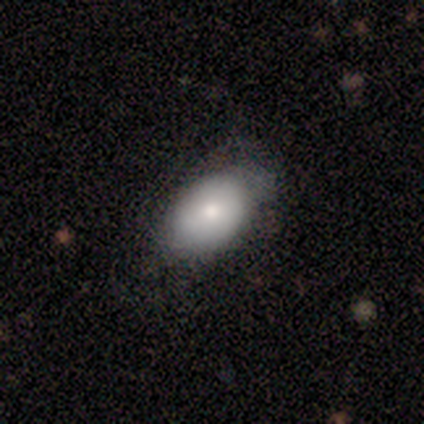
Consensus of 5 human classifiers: smooth 80%, featured or disk 20%, star or artifact 0%. Down the decision tree: how rounded — in between (100%); merging — none (60%).